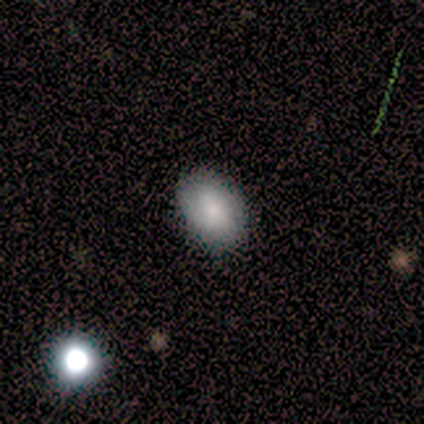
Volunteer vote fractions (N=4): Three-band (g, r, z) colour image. It shows a smooth galaxy with no disk features (100%) that is in between round and cigar-shaped (100%). Merging: none (100%).